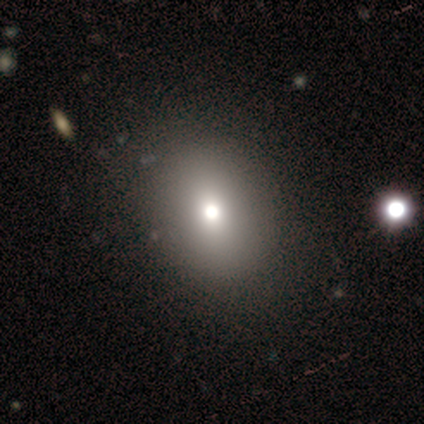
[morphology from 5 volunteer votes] smooth 60%, star or artifact 40%, featured or disk 0%. Down the decision tree: how rounded — in between (67%); merging — none (100%).